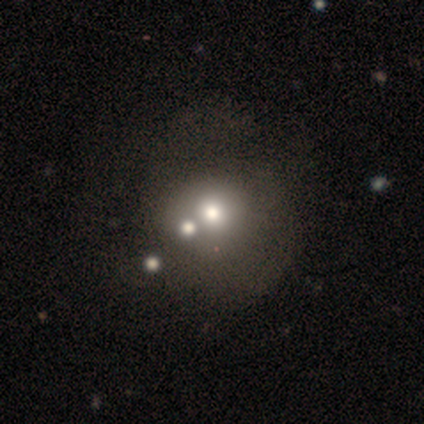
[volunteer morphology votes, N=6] Q: Smooth or featured?
A: smooth (50%); runner-up: star or artifact (33%)
Q: How rounded?
A: round (100%)
Q: Merging?
A: none (75%); runner-up: merger (25%)